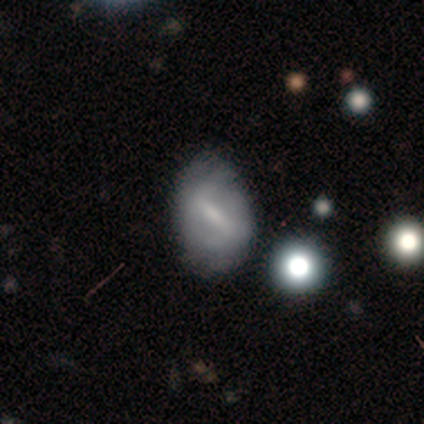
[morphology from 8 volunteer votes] Smooth or featured? featured or disk (62%)
Edge-on disk? no (100%)
Bar? strong (60%)
Spiral arms? yes (80%)
Spiral winding? medium (50%, tied with loose)
Spiral arm count? 2 (100%)
Bulge size? small (40%, tied with none)
Merging? none (86%)